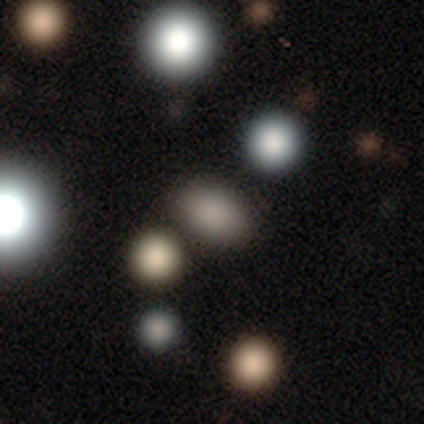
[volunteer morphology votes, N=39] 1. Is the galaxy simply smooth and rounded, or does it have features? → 72% smooth, 21% star or artifact, 8% featured or disk.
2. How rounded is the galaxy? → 89% in between, 11% round, 0% cigar-shaped.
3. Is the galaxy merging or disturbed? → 71% none, 13% merger, 10% minor disturbance, 6% major disturbance.